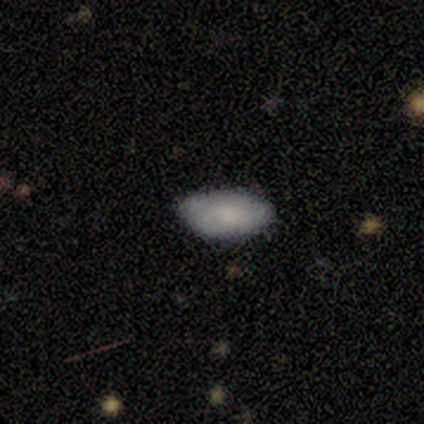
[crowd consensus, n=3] This is likely a smooth galaxy (67%). How rounded: clearly in between (100%). Merging: clearly none (100%).